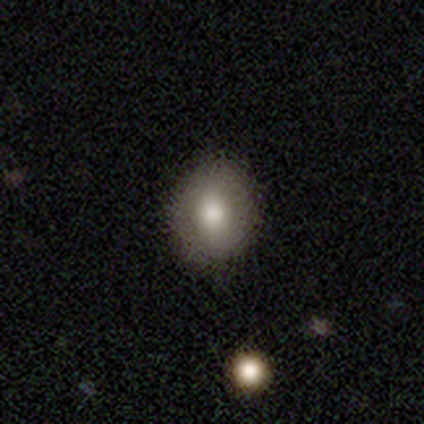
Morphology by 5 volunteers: Q: Smooth or featured?
A: smooth (80%); runner-up: featured or disk (20%)
Q: How rounded?
A: round (50%); tied with: in between (50%)
Q: Merging?
A: none (60%); runner-up: minor disturbance (40%)